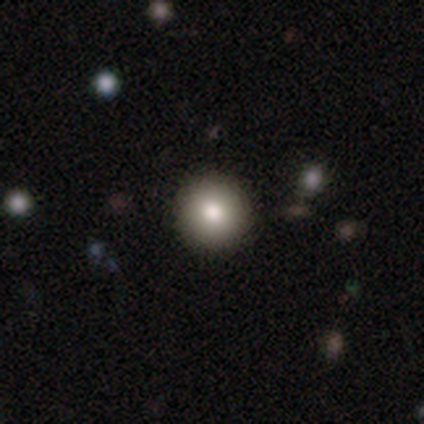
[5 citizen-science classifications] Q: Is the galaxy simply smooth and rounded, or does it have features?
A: smooth — 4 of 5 (80%).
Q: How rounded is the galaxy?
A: round — 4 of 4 (100%).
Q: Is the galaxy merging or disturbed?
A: none — 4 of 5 (80%).